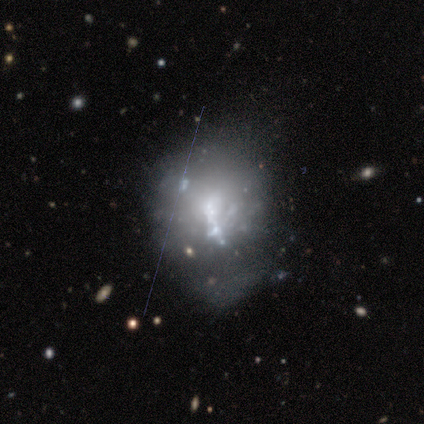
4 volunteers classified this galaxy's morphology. Overall: smooth (50%, tied with featured or disk). How rounded: round (50%, tied with in between). Merging: minor disturbance (50%; none 25%).